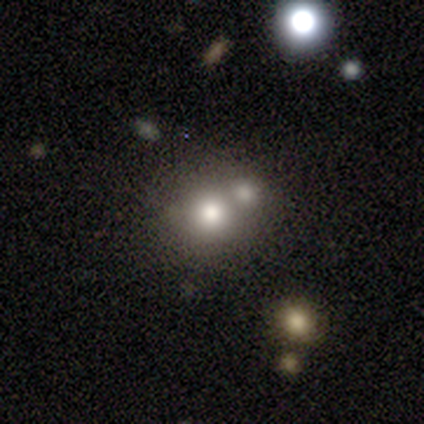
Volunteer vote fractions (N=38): Morphology: type=smooth (66%); roundness=round (84%); merging=merger (52%).